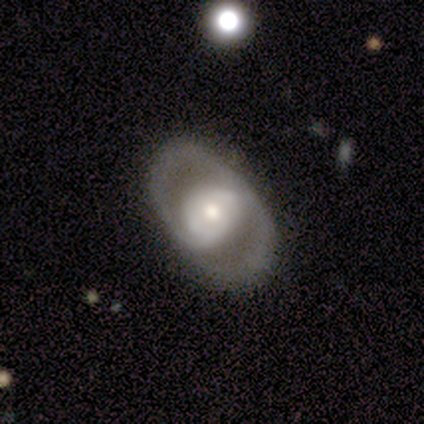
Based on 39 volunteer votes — Volunteers were most divided on "bar": no: 52%, weak: 37%, strong: 11%. More confident: edge-on disk — no (96%); merging — none (78%); spiral arm count — 2 (75%); spiral arms — yes (74%); smooth or featured — featured or disk (72%); spiral winding — medium (55%); bulge size — moderate (52%).